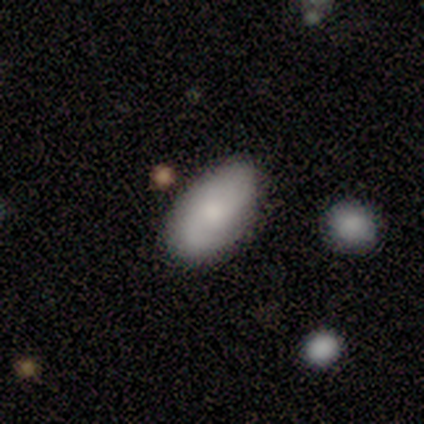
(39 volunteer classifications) This appears to be a smooth galaxy with no disk features (67%) that is in between round and cigar-shaped (92%). Merging: none (89%).